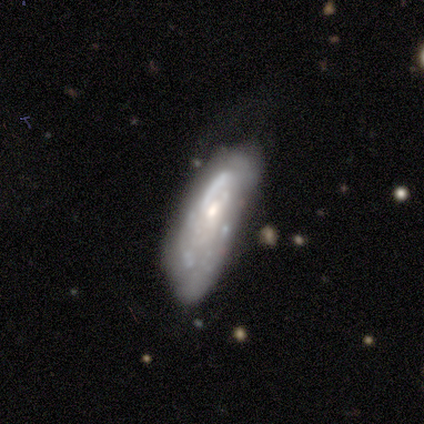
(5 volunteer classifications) A featured or disk galaxy (80%) viewed edge-on (50%, tied with no) with no central bulge (50%, tied with rounded). Merging: none (60%).